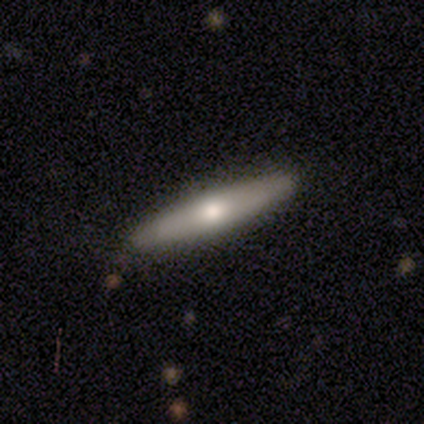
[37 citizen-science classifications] Q: Smooth or featured?
A: featured or disk (51%); runner-up: smooth (49%)
Q: Edge-on disk?
A: yes (95%); runner-up: no (5%)
Q: Edge-on bulge?
A: rounded (89%); runner-up: boxy (6%)
Q: Merging?
A: none (95%); runner-up: minor disturbance (5%)